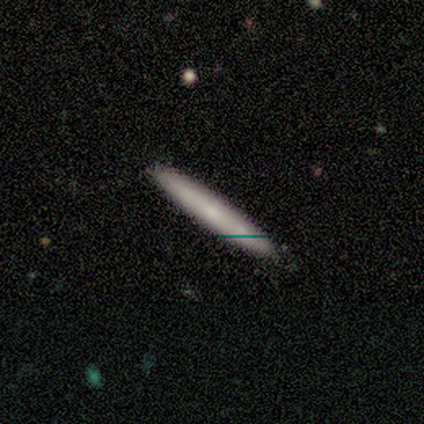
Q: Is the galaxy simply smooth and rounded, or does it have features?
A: smooth — 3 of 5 (60%).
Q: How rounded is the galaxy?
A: cigar-shaped — 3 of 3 (100%).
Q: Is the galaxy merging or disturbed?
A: none — 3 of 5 (60%).